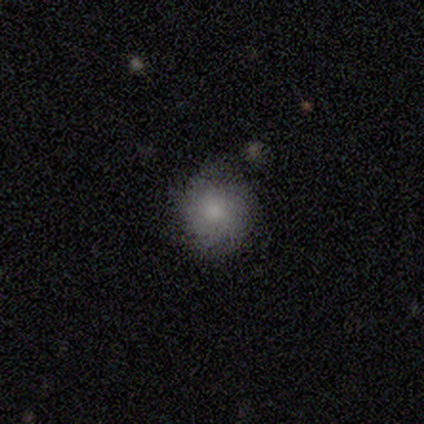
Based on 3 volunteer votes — Morphology: type=smooth (100%); roundness=round (100%); merging=none (100%).